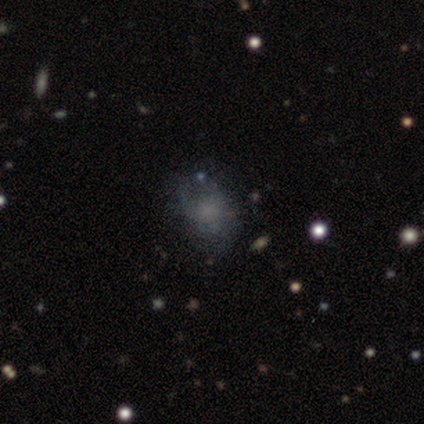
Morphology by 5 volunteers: smooth 40% (tied), star or artifact 40% (tied), featured or disk 20%. Down the decision tree: how rounded — round (50%, tied with in between); merging — none (33%, tied with minor disturbance and major disturbance).